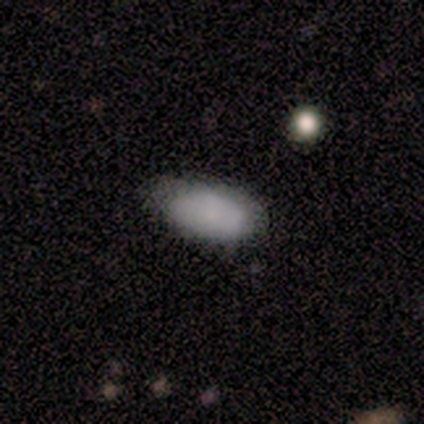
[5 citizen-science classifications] smooth 60%, featured or disk 20%, star or artifact 20%. Down the decision tree: how rounded — in between (100%); merging — none (75%).